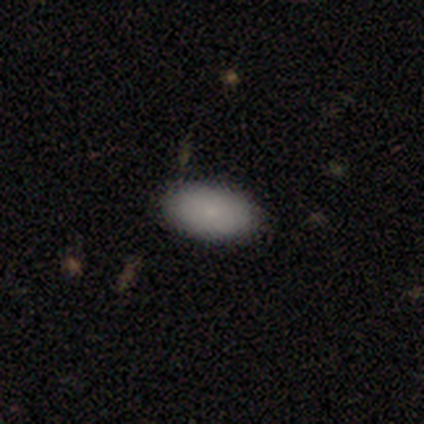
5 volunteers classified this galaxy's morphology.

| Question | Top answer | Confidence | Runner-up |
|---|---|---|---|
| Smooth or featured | smooth | 100% | — |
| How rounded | in between | 100% | — |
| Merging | none | 80% | minor disturbance (20%) |